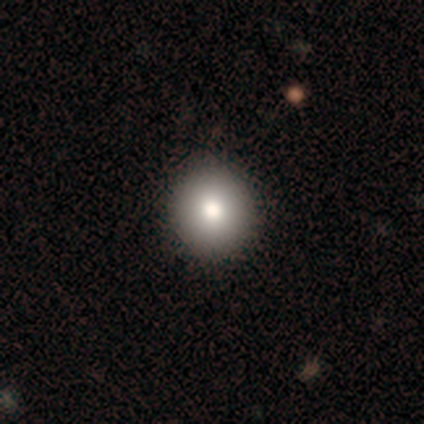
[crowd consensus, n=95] Smooth or featured?
  - smooth: 76% *
  - featured or disk: 13%
  - star or artifact: 12%
How rounded?
  - round: 94% *
  - in between: 6%
  - cigar-shaped: 0%
Merging?
  - none: 96% *
  - minor disturbance: 2%
  - major disturbance: 1%
  - merger: 0%